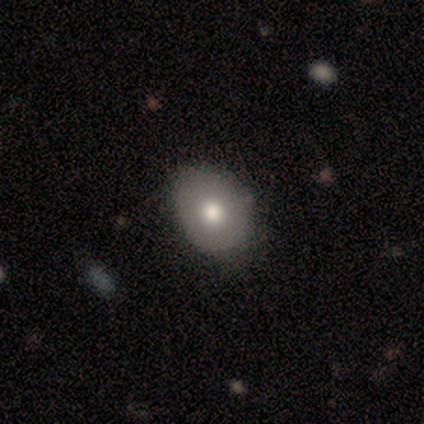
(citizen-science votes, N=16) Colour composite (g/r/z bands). It shows a smooth galaxy with no disk features (88%) that is in between round and cigar-shaped (79%). Merging: none (69%).